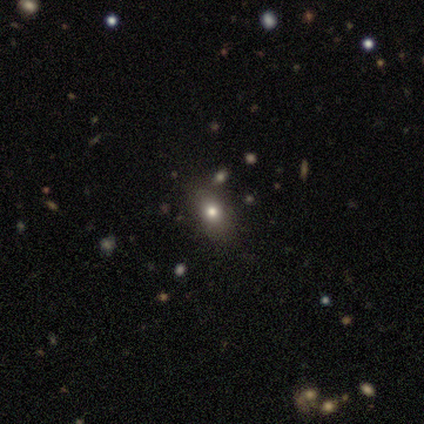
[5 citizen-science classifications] smooth_or_featured: smooth (p=0.60) [alt: star or artifact p=0.40]
how_rounded: in between (p=0.67) [alt: round p=0.33]
merging: none (p=0.67) [alt: minor disturbance p=0.33]